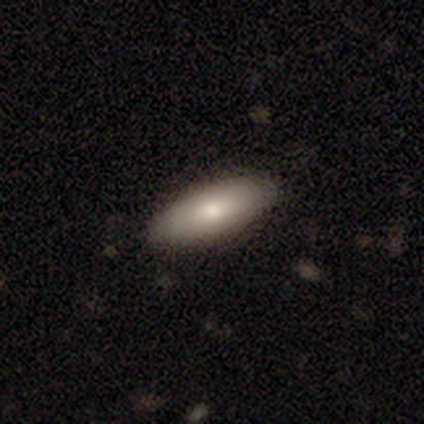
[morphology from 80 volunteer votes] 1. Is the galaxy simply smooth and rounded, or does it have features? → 79% smooth, 15% featured or disk, 6% star or artifact.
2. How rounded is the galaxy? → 79% in between, 19% cigar-shaped, 2% round.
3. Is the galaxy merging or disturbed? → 45% none, 8% minor disturbance, 4% merger, 0% major disturbance.